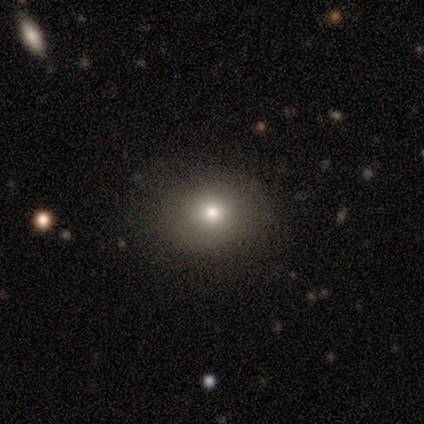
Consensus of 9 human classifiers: This is likely a smooth galaxy (67%). How rounded: likely in between (67%). Merging: clearly none (88%).